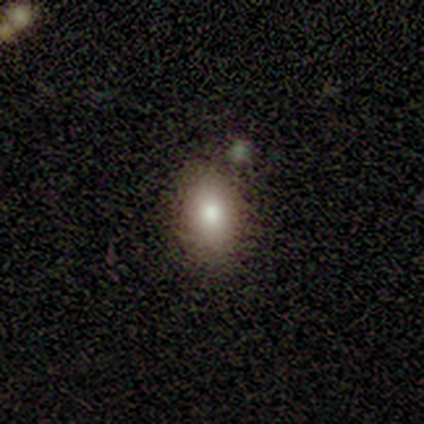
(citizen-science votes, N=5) Smooth or featured? 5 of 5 (100%) said smooth. How rounded? 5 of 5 (100%) said in between. Merging? 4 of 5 (80%) said none.